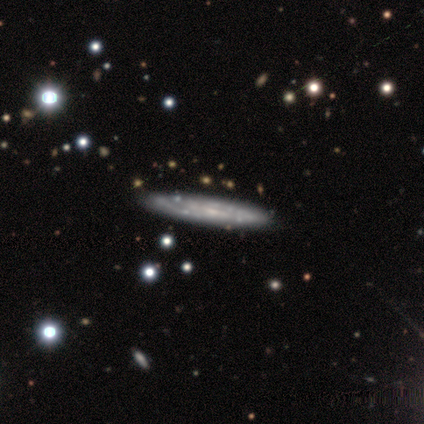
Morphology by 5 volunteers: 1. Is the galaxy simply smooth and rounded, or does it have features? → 40% smooth (tied), 40% star or artifact (tied), 20% featured or disk.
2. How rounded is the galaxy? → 100% cigar-shaped, 0% round, 0% in between.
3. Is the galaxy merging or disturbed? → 67% none, 33% minor disturbance, 0% major disturbance, 0% merger.